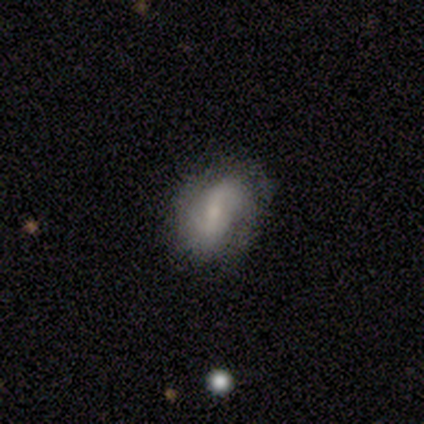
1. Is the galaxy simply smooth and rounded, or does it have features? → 100% featured or disk, 0% smooth, 0% star or artifact.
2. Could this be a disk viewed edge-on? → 100% no, 0% yes.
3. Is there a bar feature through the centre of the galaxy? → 60% weak, 20% strong, 20% no.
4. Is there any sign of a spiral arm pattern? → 100% yes, 0% no.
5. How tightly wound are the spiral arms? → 60% medium, 20% tight, 20% loose.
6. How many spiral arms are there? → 100% 2, 0% 1, 0% 3, 0% 4, 0% more than 4, 0% can't tell.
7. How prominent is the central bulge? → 60% small, 40% moderate, 0% dominant, 0% large, 0% none.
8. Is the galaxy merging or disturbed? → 80% none, 20% minor disturbance, 0% major disturbance, 0% merger.